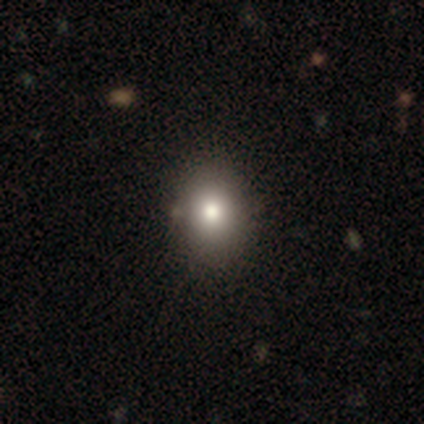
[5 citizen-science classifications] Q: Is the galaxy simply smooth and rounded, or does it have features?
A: smooth — 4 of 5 (80%).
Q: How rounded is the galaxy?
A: round — 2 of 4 (50%, tied with in between).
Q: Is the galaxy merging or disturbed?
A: none — 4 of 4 (100%).